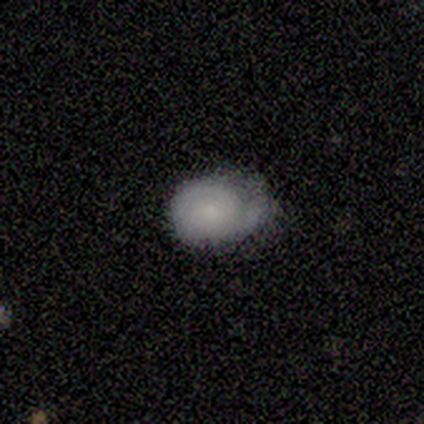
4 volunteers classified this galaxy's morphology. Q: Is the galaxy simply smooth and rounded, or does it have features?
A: smooth — 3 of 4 (75%).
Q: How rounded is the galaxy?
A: in between — 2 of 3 (67%).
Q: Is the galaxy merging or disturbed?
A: none — 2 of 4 (50%, tied with minor disturbance).